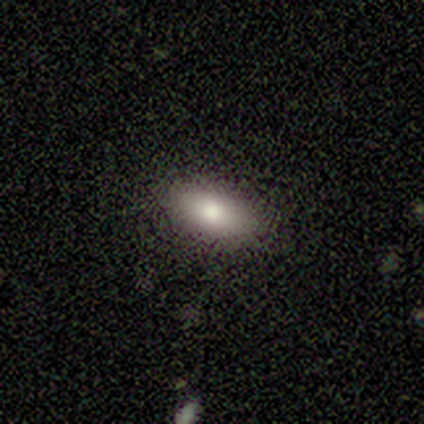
A smooth galaxy with no disk features (80%) that is in between round and cigar-shaped (75%). Merging: none (100%).